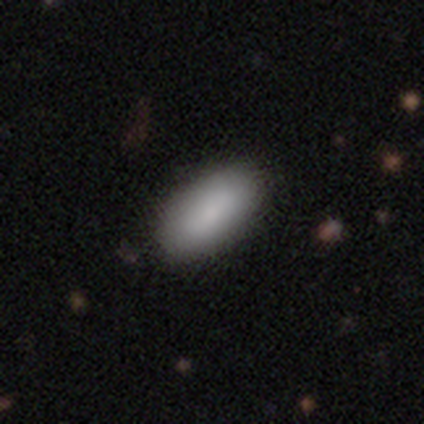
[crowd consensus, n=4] Smooth or featured: smooth — 100%
How rounded: in between — 100%
Merging: none — 100%